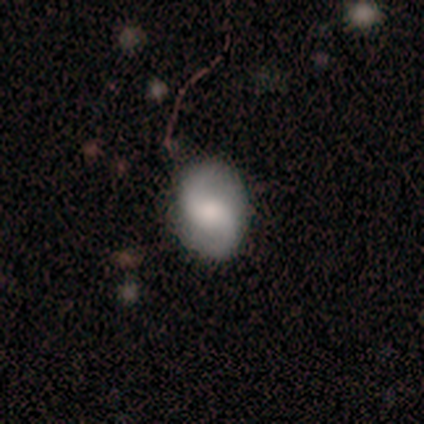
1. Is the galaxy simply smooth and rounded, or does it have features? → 50% star or artifact, 25% smooth, 25% featured or disk.